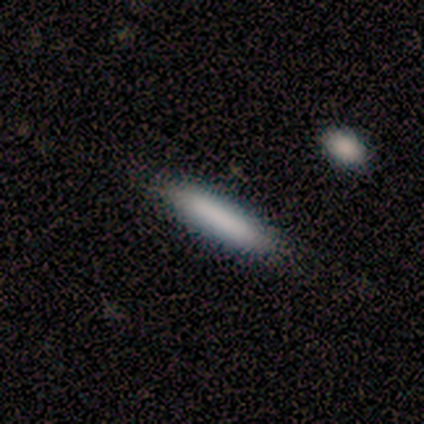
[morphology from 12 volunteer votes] Smooth or featured? smooth (83%)
How rounded? cigar-shaped (70%)
Merging? none (92%)